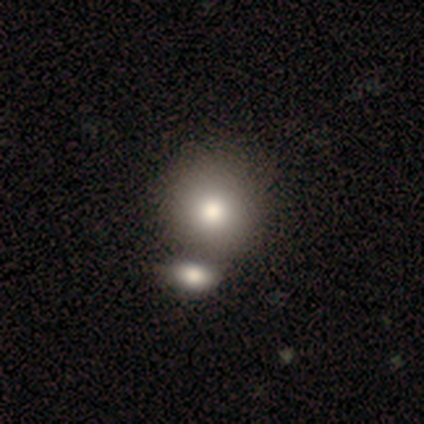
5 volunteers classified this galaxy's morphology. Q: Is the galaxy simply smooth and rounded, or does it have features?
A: smooth — 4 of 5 (80%).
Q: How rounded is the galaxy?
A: round — 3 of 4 (75%).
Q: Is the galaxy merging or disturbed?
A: merger — 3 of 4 (75%).